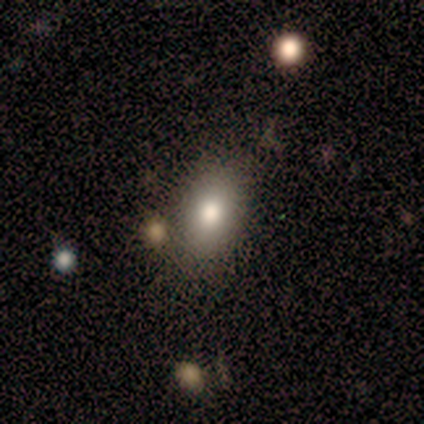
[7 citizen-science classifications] A smooth galaxy with no disk features (100%) that is in between round and cigar-shaped (86%).

Vote fractions:
- Smooth or featured? smooth: 100% / featured or disk: 0% / star or artifact: 0%
- How rounded? in between: 86% / round: 14% / cigar-shaped: 0%
- Merging? none: 100% / minor disturbance: 0% / major disturbance: 0% / merger: 0%